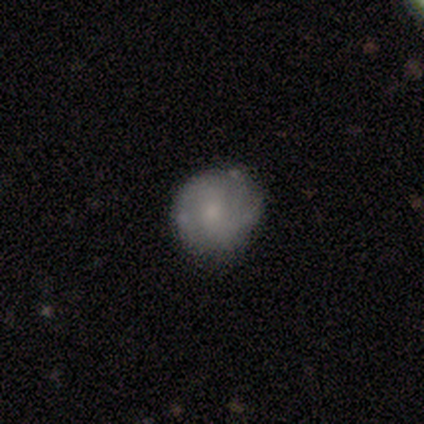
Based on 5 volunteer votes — A smooth galaxy with no disk features (60%) that is round (67%).

Vote fractions:
- Smooth or featured? smooth: 60% / featured or disk: 40% / star or artifact: 0%
- How rounded? round: 67% / in between: 33% / cigar-shaped: 0%
- Merging? none: 60% / minor disturbance: 40% / major disturbance: 0% / merger: 0%